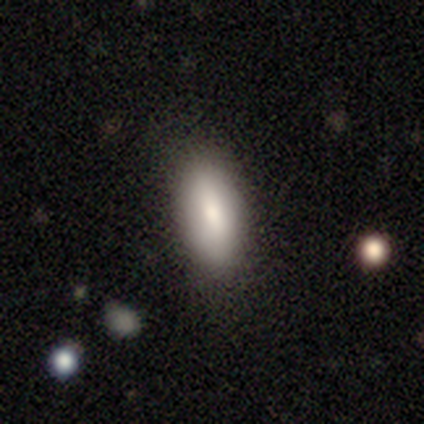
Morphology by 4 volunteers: A smooth galaxy with no disk features (100%) that is in between round and cigar-shaped (100%). Merging: none (75%).